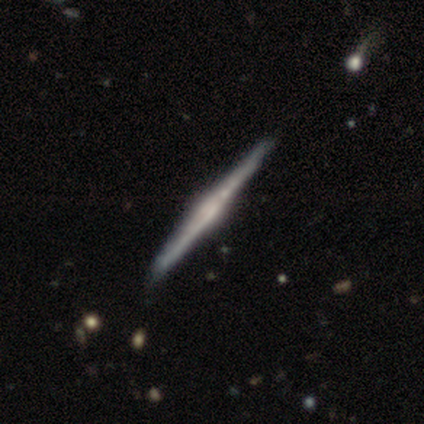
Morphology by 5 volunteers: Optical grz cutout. It shows a featured or disk galaxy (100%) viewed edge-on (100%) with no central bulge (40%, tied with rounded). Merging: none (40%, tied with minor disturbance).